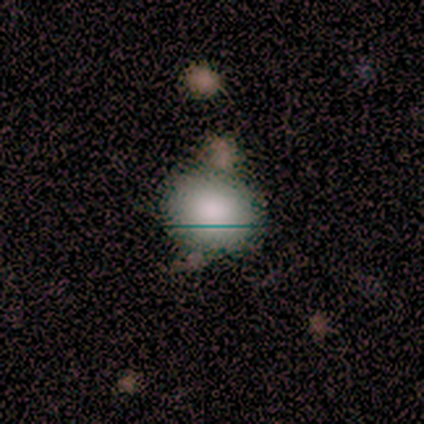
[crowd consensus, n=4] Q: Smooth or featured?
A: smooth (100%)
Q: How rounded?
A: round (75%); runner-up: in between (25%)
Q: Merging?
A: none (75%); runner-up: minor disturbance (25%)